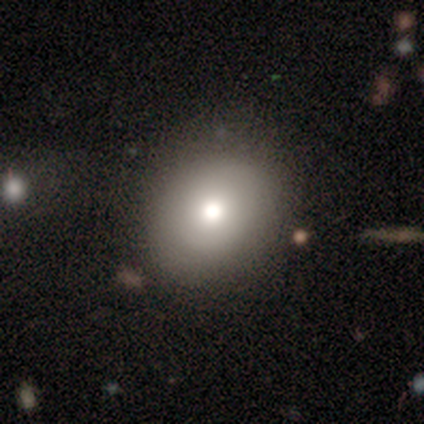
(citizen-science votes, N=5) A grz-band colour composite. It shows a smooth galaxy with no disk features (60%) that is round (100%). Merging: none (100%).